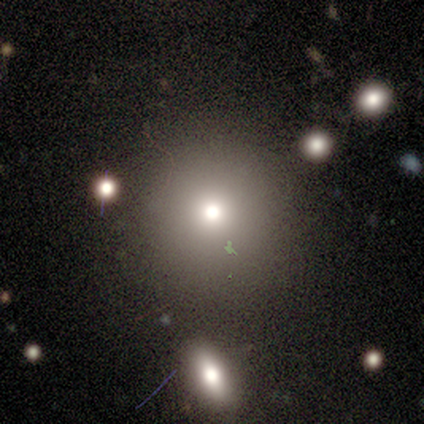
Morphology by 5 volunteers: This appears to be a smooth galaxy with no disk features (80%) that is round (100%). Merging: none (100%).